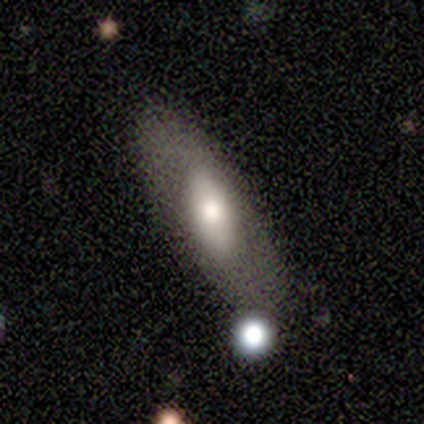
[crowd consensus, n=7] smooth-or-featured: smooth: 57% | featured or disk: 43% | star or artifact: 0%
  how-rounded: in between: 75% | cigar-shaped: 25% | round: 0%
  merging: none: 71% | minor disturbance: 14% | merger: 14% | major disturbance: 0%